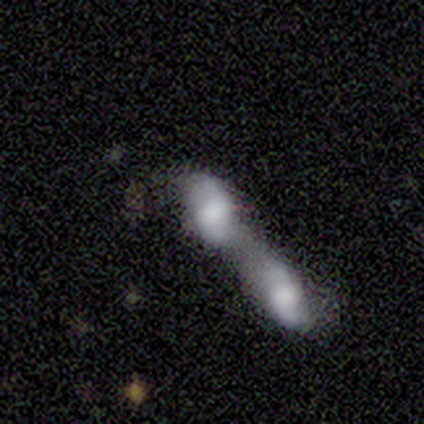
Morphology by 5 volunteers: A featured or disk galaxy (60%) with a strong bar (33%, tied with weak and no), 2 (100%) loose (100%) spiral arms (100%) and a large central bulge (67%).

Vote fractions:
- Smooth or featured? featured or disk: 60% / smooth: 40% / star or artifact: 0%
- Edge-on disk? no: 100% / yes: 0%
- Bar? strong: 33% (tied) / weak: 33% (tied) / no: 33% (tied)
- Spiral arms? yes: 100% / no: 0%
- Spiral winding? loose: 100% / tight: 0% / medium: 0%
- Spiral arm count? 2: 100% / 1: 0% / 3: 0% / 4: 0% / more than 4: 0% / can't tell: 0%
- Bulge size? large: 67% / small: 33% / dominant: 0% / moderate: 0% / none: 0%
- Merging? merger: 80% / minor disturbance: 20% / none: 0% / major disturbance: 0%